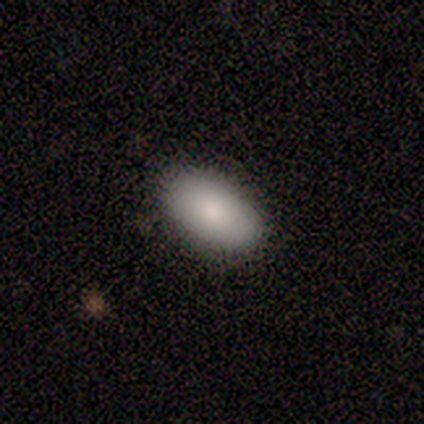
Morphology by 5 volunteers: Smooth or featured? 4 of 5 (80%) said smooth. How rounded? 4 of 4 (100%) said in between. Merging? 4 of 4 (100%) said none.